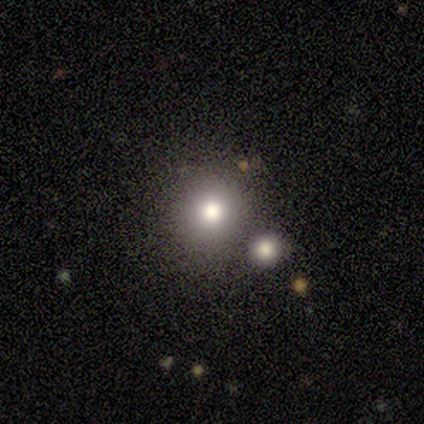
A smooth galaxy with no disk features (40%, tied with featured or disk) that is round (100%). Merging: none (100%).